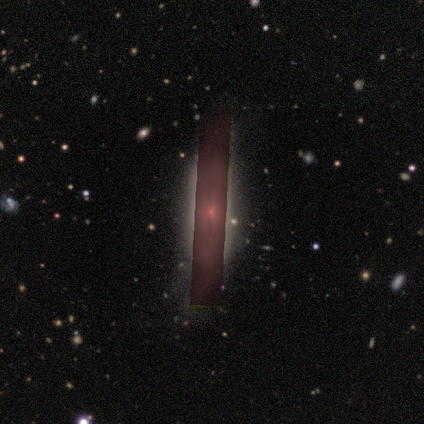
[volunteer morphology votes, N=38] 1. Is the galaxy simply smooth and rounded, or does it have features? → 45% star or artifact, 39% featured or disk, 16% smooth.